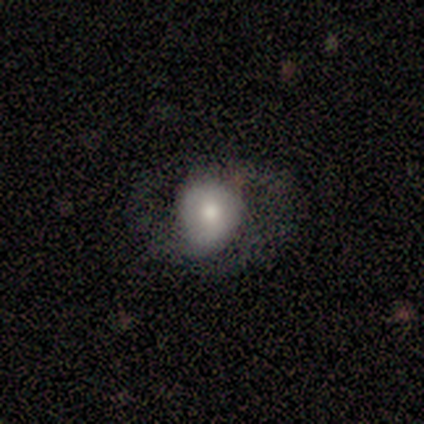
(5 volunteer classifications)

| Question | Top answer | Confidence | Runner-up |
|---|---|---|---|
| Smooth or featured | featured or disk | 80% | smooth (20%) |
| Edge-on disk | no | 100% | — |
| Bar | no | 50% | strong (25%) |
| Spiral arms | no | 75% | yes (25%) |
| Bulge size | moderate | 100% | — |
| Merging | none | 60% | minor disturbance (20%) |